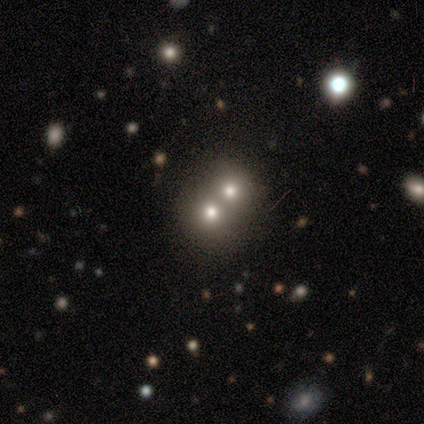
Overall: smooth (100%). How rounded: round (75%). Merging: merger (75%).